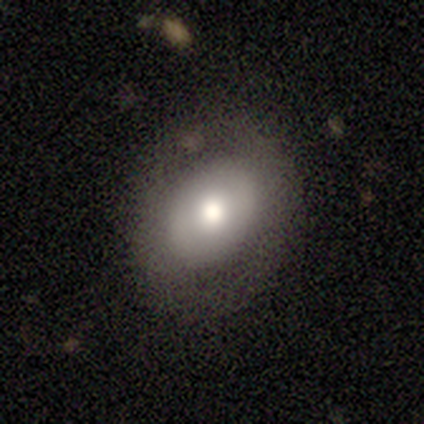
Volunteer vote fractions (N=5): A smooth galaxy with no disk features (80%) that is in between round and cigar-shaped (75%). Merging: none (75%).